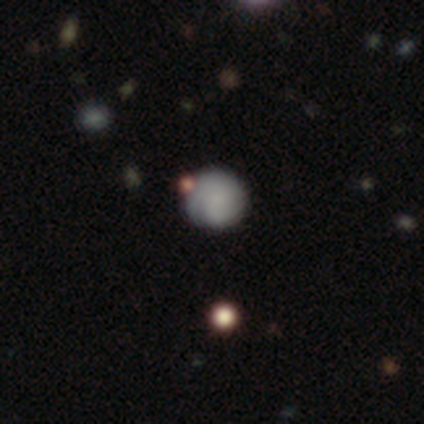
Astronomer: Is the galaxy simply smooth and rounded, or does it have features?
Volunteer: featured or disk — 50%.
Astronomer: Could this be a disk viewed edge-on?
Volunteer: no — 100%.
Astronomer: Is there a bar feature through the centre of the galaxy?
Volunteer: no — 100%.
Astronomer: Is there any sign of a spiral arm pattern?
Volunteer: yes — 100%.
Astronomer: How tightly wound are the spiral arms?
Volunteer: tight — 100%.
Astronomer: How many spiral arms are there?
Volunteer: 1 — 50%, tied with can't tell at 50%.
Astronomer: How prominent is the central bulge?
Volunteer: small — 100%.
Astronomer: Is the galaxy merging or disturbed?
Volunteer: none — 33%, tied with minor disturbance and merger at 33%.